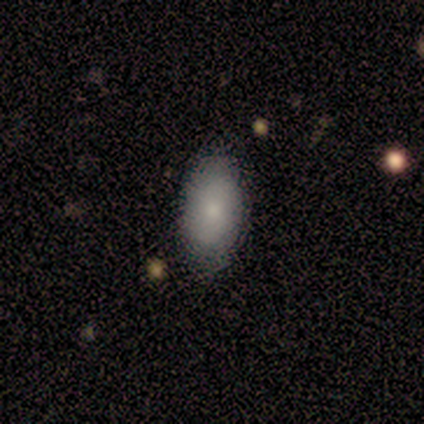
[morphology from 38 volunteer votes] A smooth galaxy with no disk features (76%) that is in between round and cigar-shaped (93%). Merging: none (78%).